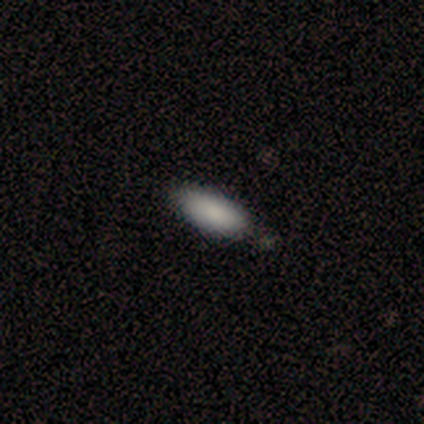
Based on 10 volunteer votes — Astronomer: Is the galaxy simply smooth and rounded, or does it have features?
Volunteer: smooth — 100%.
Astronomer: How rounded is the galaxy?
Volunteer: in between — 90%.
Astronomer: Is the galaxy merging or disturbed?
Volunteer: none — 90%.